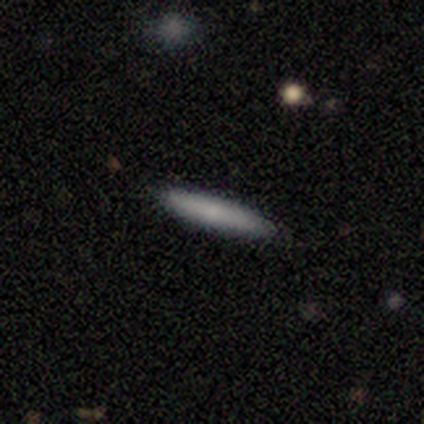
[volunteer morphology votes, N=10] Smooth or featured?
  - smooth: 90% *
  - featured or disk: 10%
  - star or artifact: 0%
How rounded?
  - cigar-shaped: 100% *
  - round: 0%
  - in between: 0%
Merging?
  - none: 100% *
  - minor disturbance: 0%
  - major disturbance: 0%
  - merger: 0%